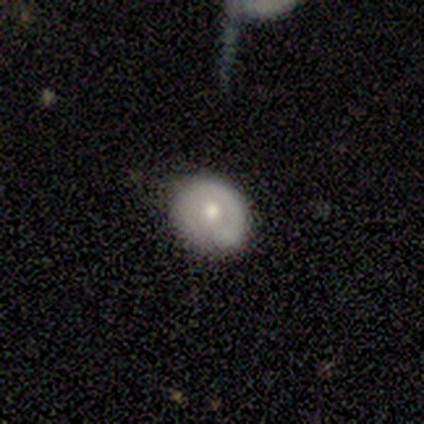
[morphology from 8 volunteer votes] smooth-or-featured: featured or disk: 62% | smooth: 38% | star or artifact: 0%
  disk-edge-on: no: 100% | yes: 0%
    bar: no: 100% | strong: 0% | weak: 0%
    has-spiral-arms: no: 60% | yes: 40%
    bulge-size: moderate: 80% | small: 20% | dominant: 0% | large: 0% | none: 0%
  merging: none: 75% | minor disturbance: 25% | major disturbance: 0% | merger: 0%